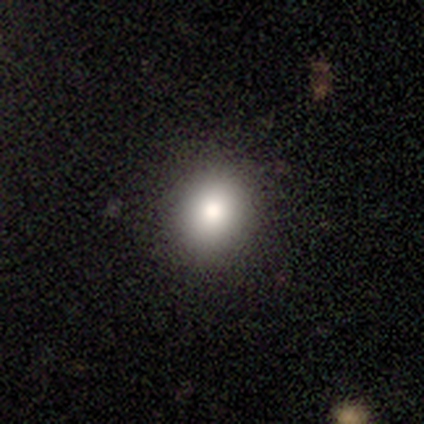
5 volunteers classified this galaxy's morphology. A smooth galaxy with no disk features (100%) that is round (100%). Merging: none (100%).